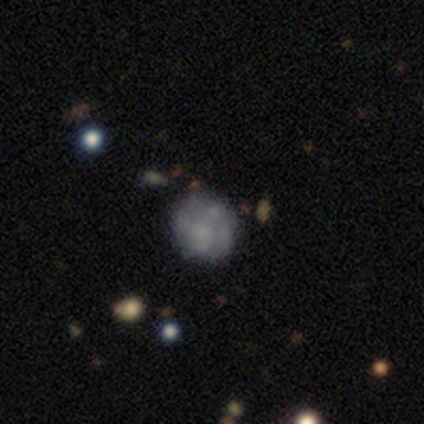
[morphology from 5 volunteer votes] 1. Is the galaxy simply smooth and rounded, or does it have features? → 60% featured or disk, 40% smooth, 0% star or artifact.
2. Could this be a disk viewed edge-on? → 100% no, 0% yes.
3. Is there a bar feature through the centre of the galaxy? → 67% no, 33% strong, 0% weak.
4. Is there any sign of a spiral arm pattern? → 67% no, 33% yes.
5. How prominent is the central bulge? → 67% moderate, 33% large, 0% dominant, 0% small, 0% none.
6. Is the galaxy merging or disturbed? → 80% none, 20% minor disturbance, 0% major disturbance, 0% merger.